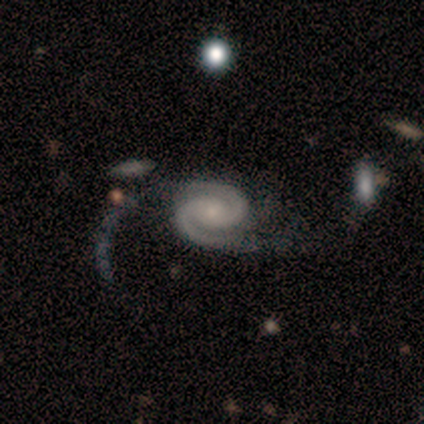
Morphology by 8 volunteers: Overall: featured or disk (100%). Edge-on disk: no (100%). Bar: no (62%; weak 38%). Spiral arms: yes (100%). Spiral arm count: 2 (100%). Spiral winding: medium (62%; tight 25%). Bulge size: small (62%; moderate 38%). Merging: major disturbance (50%; none 38%).